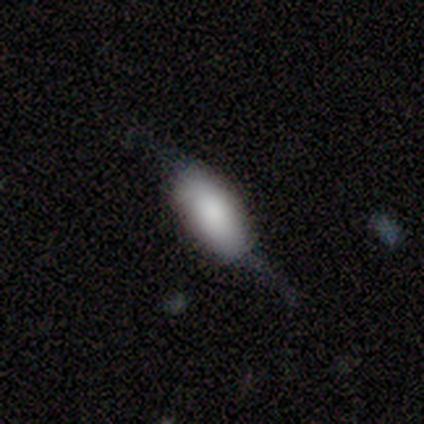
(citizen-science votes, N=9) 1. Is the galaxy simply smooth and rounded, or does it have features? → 67% smooth, 33% featured or disk, 0% star or artifact.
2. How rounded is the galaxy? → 100% in between, 0% round, 0% cigar-shaped.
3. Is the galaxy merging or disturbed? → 44% minor disturbance, 33% none, 22% major disturbance, 0% merger.